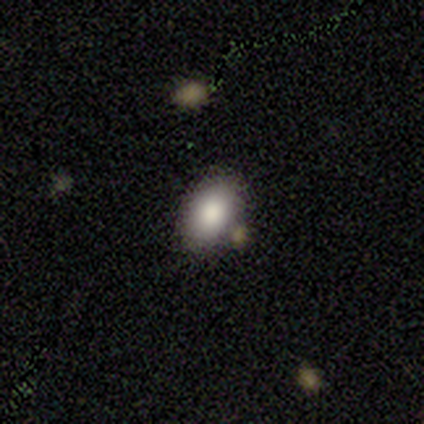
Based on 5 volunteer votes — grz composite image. It shows a smooth galaxy with no disk features (80%) that is in between round and cigar-shaped (75%). Merging: none (50%).